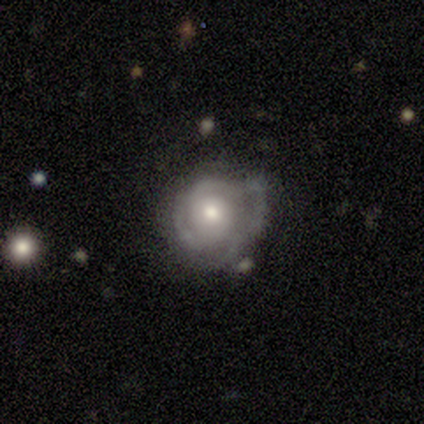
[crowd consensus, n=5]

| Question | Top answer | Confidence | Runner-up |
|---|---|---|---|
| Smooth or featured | featured or disk | 80% | smooth (20%) |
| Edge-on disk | no | 100% | — |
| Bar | no | 75% | weak (25%) |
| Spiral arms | yes | 75% | no (25%) |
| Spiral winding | tight | 100% | — |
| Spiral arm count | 3 | 67% | 2 (33%) |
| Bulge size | moderate | 75% | large (25%) |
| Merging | none | 100% | — |